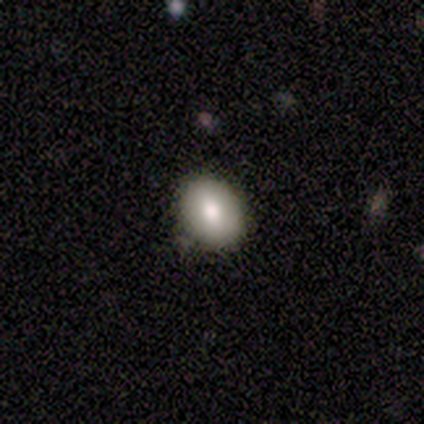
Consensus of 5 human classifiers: Smooth or featured? smooth (100%)
How rounded? in between (100%)
Merging? minor disturbance (60%)